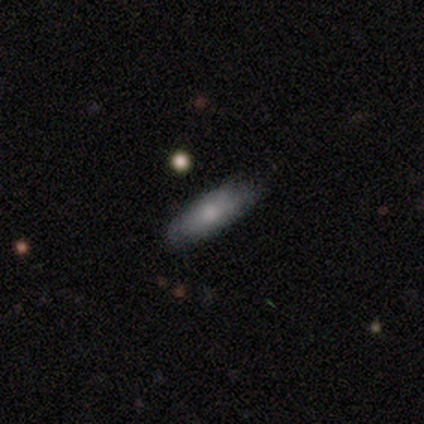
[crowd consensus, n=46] Smooth or featured? smooth (67%)
How rounded? in between (65%)
Merging? none (79%)